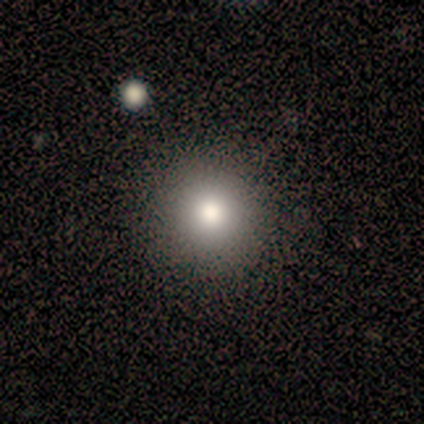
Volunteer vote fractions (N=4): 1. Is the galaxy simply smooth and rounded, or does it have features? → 75% smooth, 25% featured or disk, 0% star or artifact.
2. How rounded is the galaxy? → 100% round, 0% in between, 0% cigar-shaped.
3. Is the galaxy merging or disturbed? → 100% none, 0% minor disturbance, 0% major disturbance, 0% merger.